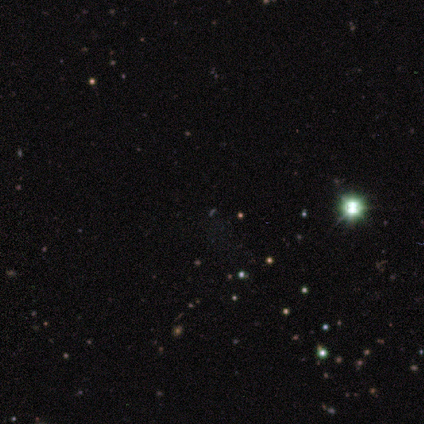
Smooth or featured? 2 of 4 (50%) said star or artifact.